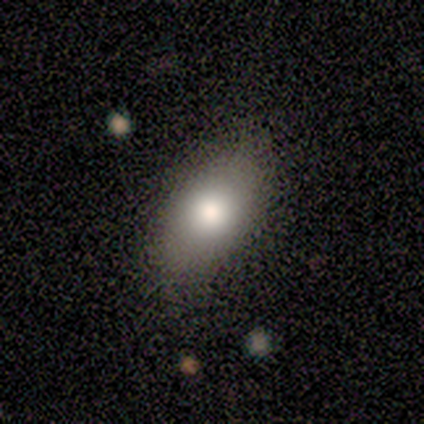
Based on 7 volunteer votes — Smooth or featured?
  - smooth: 100% *
  - featured or disk: 0%
  - star or artifact: 0%
How rounded?
  - in between: 100% *
  - round: 0%
  - cigar-shaped: 0%
Merging?
  - none: 86% *
  - minor disturbance: 14%
  - major disturbance: 0%
  - merger: 0%